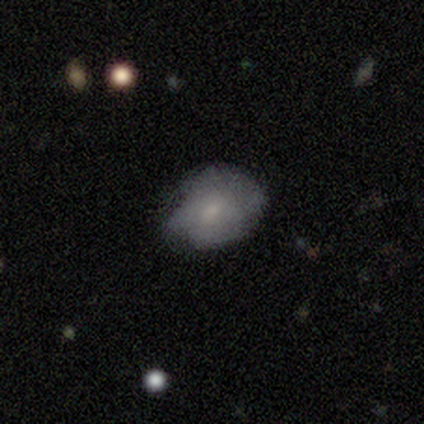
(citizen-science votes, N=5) Q: Smooth or featured?
A: featured or disk (60%); runner-up: smooth (20%)
Q: Edge-on disk?
A: no (100%)
Q: Bar?
A: no (67%); runner-up: weak (33%)
Q: Spiral arms?
A: no (67%); runner-up: yes (33%)
Q: Bulge size?
A: small (67%); runner-up: none (33%)
Q: Merging?
A: none (50%); tied with: minor disturbance (50%)